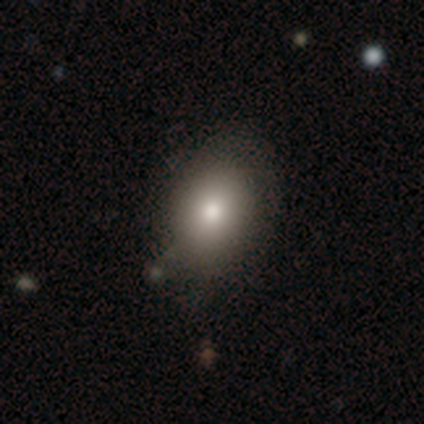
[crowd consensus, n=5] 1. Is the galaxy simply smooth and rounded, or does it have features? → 80% smooth, 20% star or artifact, 0% featured or disk.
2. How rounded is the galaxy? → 100% in between, 0% round, 0% cigar-shaped.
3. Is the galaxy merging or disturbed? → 75% none, 25% major disturbance, 0% minor disturbance, 0% merger.